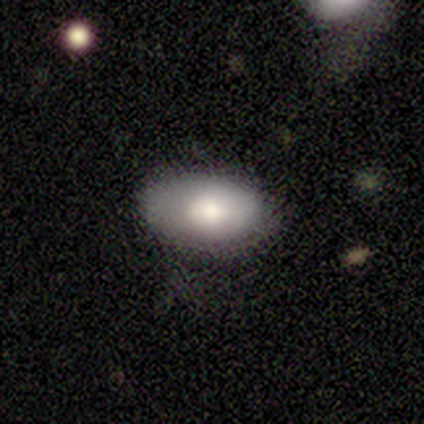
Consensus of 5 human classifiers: A smooth galaxy with no disk features (80%) that is in between round and cigar-shaped (100%).

Vote fractions:
- Smooth or featured? smooth: 80% / featured or disk: 20% / star or artifact: 0%
- How rounded? in between: 100% / round: 0% / cigar-shaped: 0%
- Merging? none: 100% / minor disturbance: 0% / major disturbance: 0% / merger: 0%